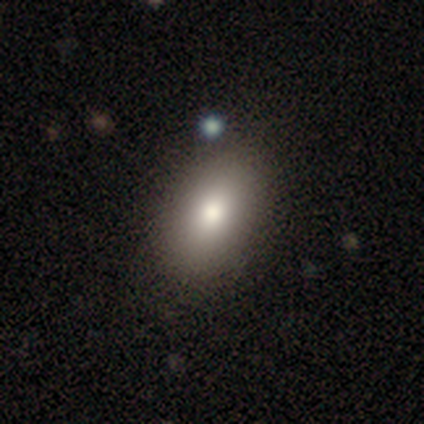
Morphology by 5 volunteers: Overall: smooth (100%). How rounded: in between (80%). Merging: none (60%; minor disturbance 40%).